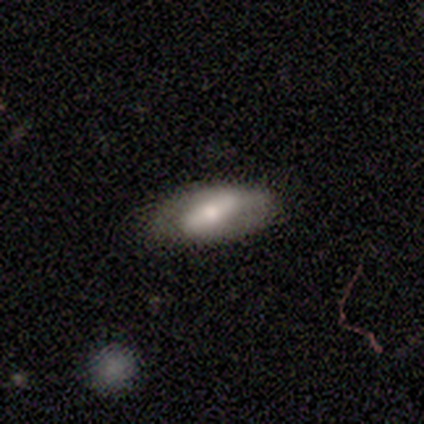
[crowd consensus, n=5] featured or disk 80%, smooth 20%, star or artifact 0%. Down the decision tree: edge-on disk — no (75%); bar — strong (33%, tied with weak and no); spiral arms — no (67%); bulge size — moderate (67%); merging — none (100%).